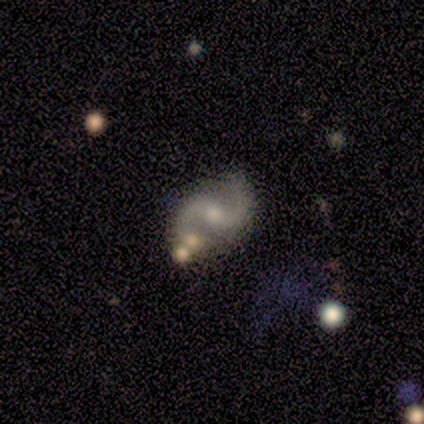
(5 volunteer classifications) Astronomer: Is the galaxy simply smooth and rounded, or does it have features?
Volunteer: featured or disk — 100%.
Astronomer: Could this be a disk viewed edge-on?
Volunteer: no — 100%.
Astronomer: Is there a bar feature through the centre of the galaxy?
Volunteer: weak — 60%.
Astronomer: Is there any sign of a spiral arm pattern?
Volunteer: yes — 100%.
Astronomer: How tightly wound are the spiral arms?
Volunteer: medium — 60% (runner-up: loose, 40%).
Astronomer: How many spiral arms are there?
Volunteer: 2 — 100%.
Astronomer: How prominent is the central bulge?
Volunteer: small — 60% (runner-up: moderate, 40%).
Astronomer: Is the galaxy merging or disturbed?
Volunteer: none — 80%.